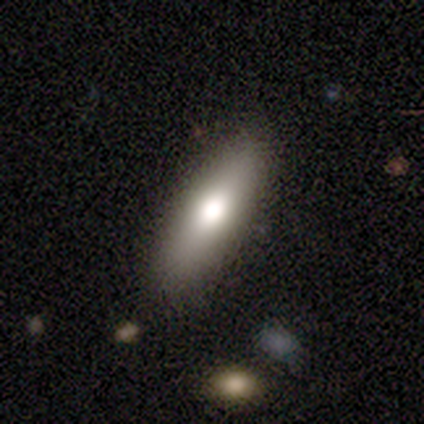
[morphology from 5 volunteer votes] This is likely a smooth galaxy (60%). How rounded: likely cigar-shaped (67%). Merging: clearly none (100%).